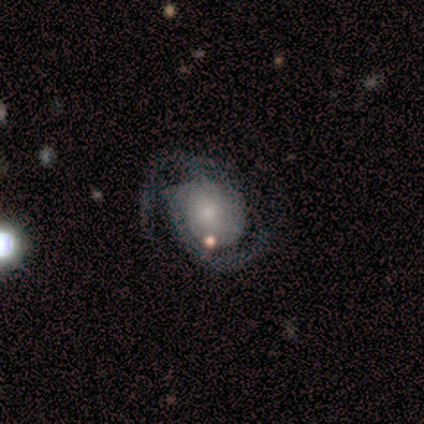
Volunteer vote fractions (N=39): Smooth or featured?
  - featured or disk: 85% *
  - smooth: 13%
  - star or artifact: 3%
Edge-on disk?
  - no: 97% *
  - yes: 3%
Bar?
  - no: 75% *
  - weak: 19%
  - strong: 6%
Spiral arms?
  - yes: 100% *
  - no: 0%
Spiral winding?
  - tight: 47% *
  - medium: 34%
  - loose: 19%
Spiral arm count?
  - 2: 94% *
  - can't tell: 6%
  - 1: 0%
  - 3: 0%
  - 4: 0%
  - more than 4: 0%
Bulge size?
  - small: 50% *
  - moderate: 28%
  - large: 12%
  - dominant: 6%
  - none: 3%
Merging?
  - none: 42% *
  - minor disturbance: 16%
  - major disturbance: 11%
  - merger: 8%